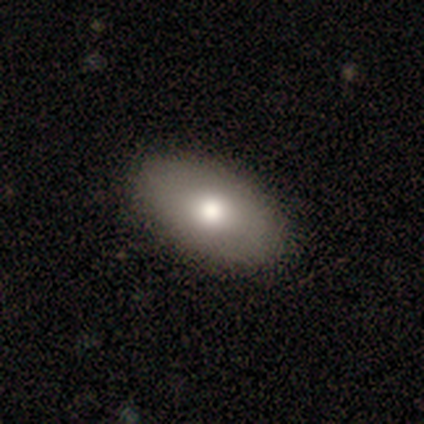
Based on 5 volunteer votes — Smooth or featured? 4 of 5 (80%) said smooth. How rounded? 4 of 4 (100%) said in between. Merging? 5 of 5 (100%) said none.